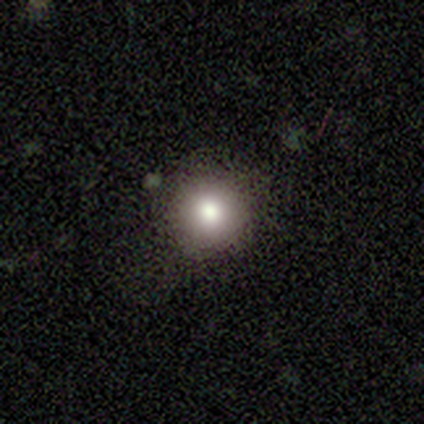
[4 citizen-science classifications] Morphology: type=smooth (75%); roundness=round (100%); merging=none (67%).